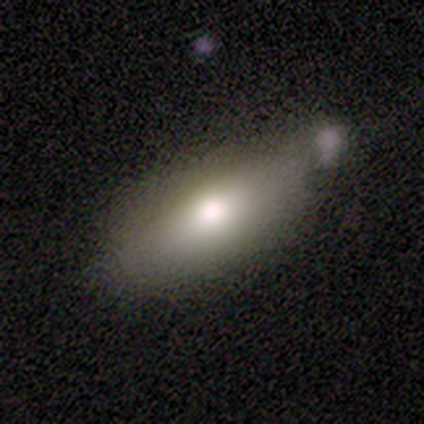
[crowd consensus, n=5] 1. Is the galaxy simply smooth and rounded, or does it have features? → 60% smooth, 40% featured or disk, 0% star or artifact.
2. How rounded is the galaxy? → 100% in between, 0% round, 0% cigar-shaped.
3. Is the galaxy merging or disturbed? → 60% none, 40% merger, 0% minor disturbance, 0% major disturbance.